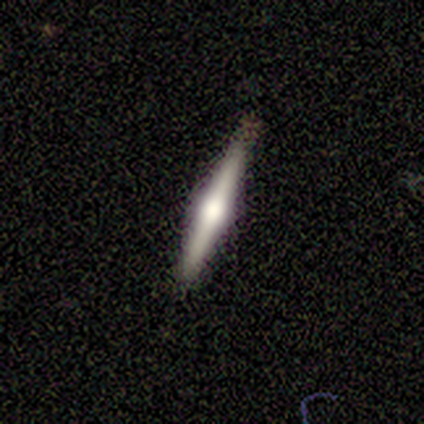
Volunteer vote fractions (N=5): smooth_or_featured: featured or disk (p=0.80) [alt: smooth p=0.20]
disk_edge_on: yes (p=1.00)
edge_on_bulge: rounded (p=1.00)
merging: none (p=1.00)